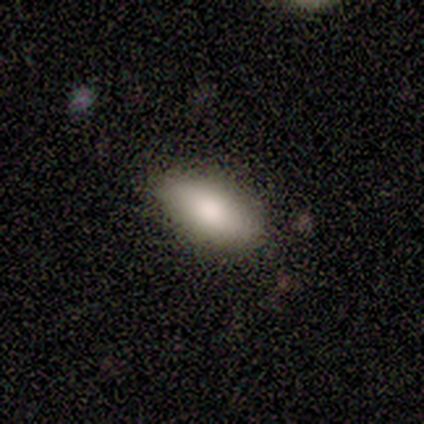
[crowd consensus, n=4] This appears to be a smooth galaxy with no disk features (75%) that is in between round and cigar-shaped (100%). Merging: none (100%).